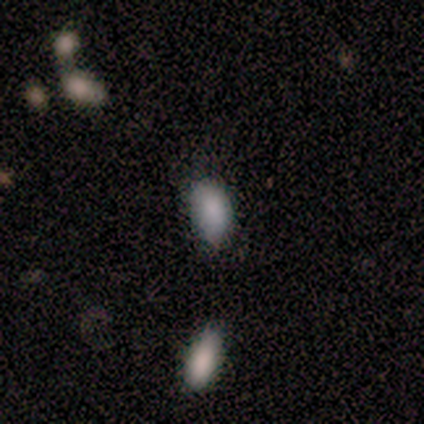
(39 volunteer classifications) Smooth or featured?
  - smooth: 79% *
  - star or artifact: 13%
  - featured or disk: 8%
How rounded?
  - in between: 97% *
  - cigar-shaped: 3%
  - round: 0%
Merging?
  - none: 71% *
  - minor disturbance: 15%
  - merger: 12%
  - major disturbance: 3%